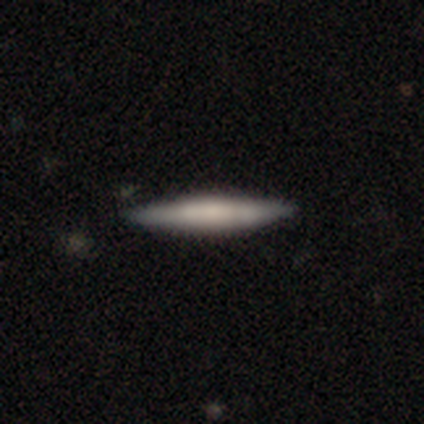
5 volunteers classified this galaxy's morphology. Overall: smooth (80%). How rounded: cigar-shaped (100%). Merging: none (100%).